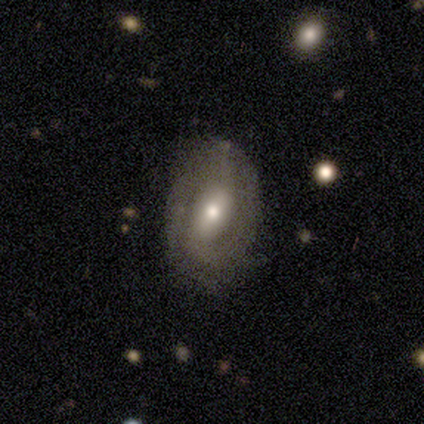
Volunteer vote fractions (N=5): Morphology: type=featured or disk (80%); edge-on=no (100%); bar=weak (75%); spiral arms=yes (75%); winding=tight (67%); arm count=can't tell (67%); bulge=moderate (50%); merging=none (80%).